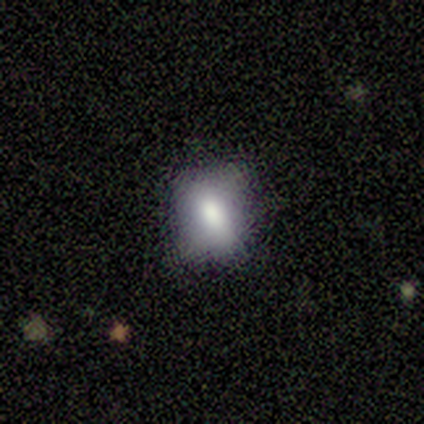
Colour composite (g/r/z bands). It shows a smooth galaxy with no disk features (50%, tied with featured or disk) that is round (50%, tied with in between). Merging: none (75%).